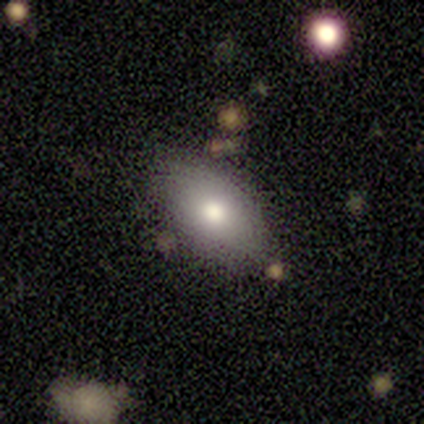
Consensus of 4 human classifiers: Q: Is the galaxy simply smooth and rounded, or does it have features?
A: smooth — 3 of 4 (75%).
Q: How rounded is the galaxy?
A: in between — 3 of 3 (100%).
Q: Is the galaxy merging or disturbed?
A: none — 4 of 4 (100%).